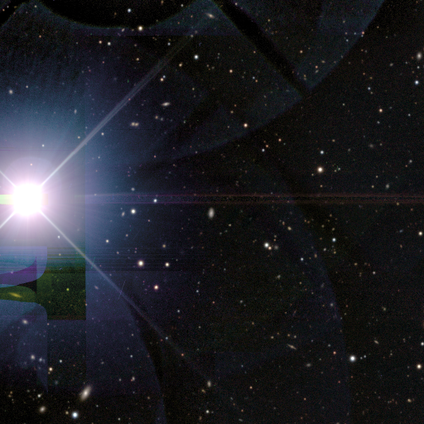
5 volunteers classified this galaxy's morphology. Smooth or featured?
  - star or artifact: 100% *
  - smooth: 0%
  - featured or disk: 0%